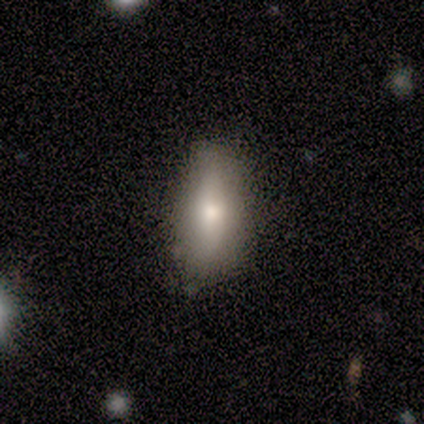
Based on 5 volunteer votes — Smooth or featured?
  - smooth: 80% *
  - star or artifact: 20%
  - featured or disk: 0%
How rounded?
  - in between: 50% *
  - round: 25%
  - cigar-shaped: 25%
Merging?
  - none: 75% *
  - major disturbance: 25%
  - minor disturbance: 0%
  - merger: 0%